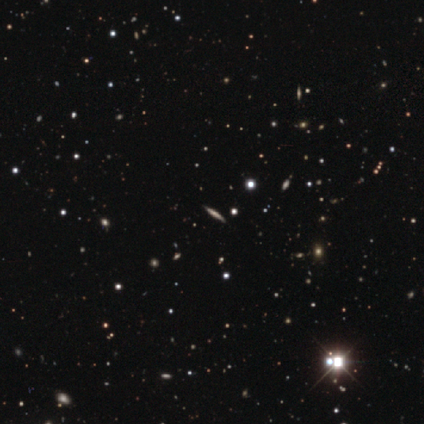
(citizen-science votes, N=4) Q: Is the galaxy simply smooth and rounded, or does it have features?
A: star or artifact — 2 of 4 (50%).